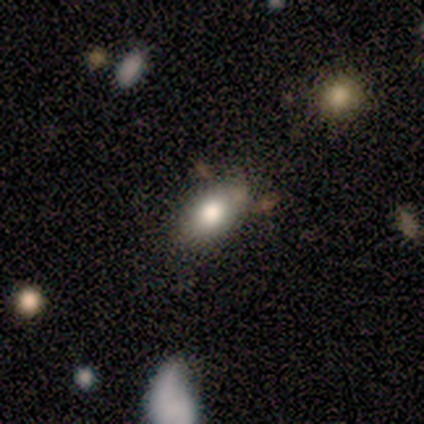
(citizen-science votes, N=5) Q: Smooth or featured?
A: smooth (80%); runner-up: star or artifact (20%)
Q: How rounded?
A: in between (100%)
Q: Merging?
A: none (50%); tied with: minor disturbance (50%)